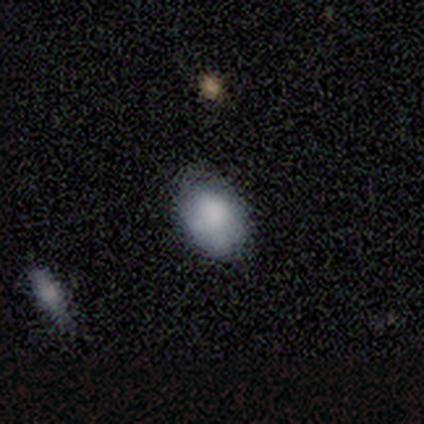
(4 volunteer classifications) Overall: smooth (75%). How rounded: in between (100%). Merging: none (100%).